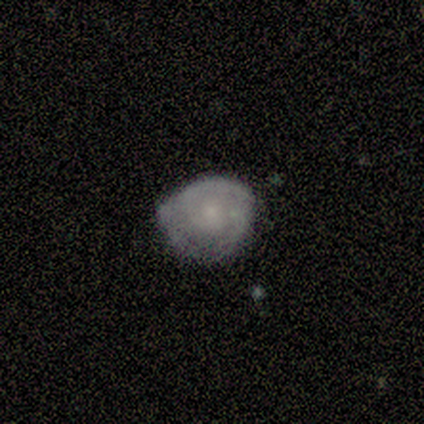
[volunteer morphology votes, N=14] A smooth galaxy with no disk features (57%) that is round (50%, tied with in between).

Vote fractions:
- Smooth or featured? smooth: 57% / featured or disk: 43% / star or artifact: 0%
- How rounded? round: 50% (tied) / in between: 50% (tied) / cigar-shaped: 0%
- Merging? none: 64% / minor disturbance: 29% / major disturbance: 7% / merger: 0%